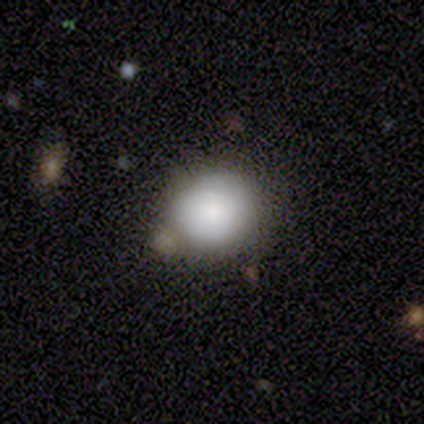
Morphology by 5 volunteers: Smooth or featured? smooth (100%)
How rounded? in between (60%)
Merging? none (100%)